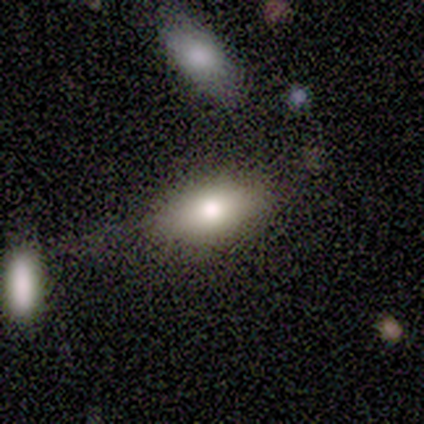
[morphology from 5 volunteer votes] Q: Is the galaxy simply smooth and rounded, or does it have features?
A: smooth — 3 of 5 (60%).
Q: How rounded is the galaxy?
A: in between — 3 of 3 (100%).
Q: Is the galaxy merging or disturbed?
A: none — 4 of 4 (100%).